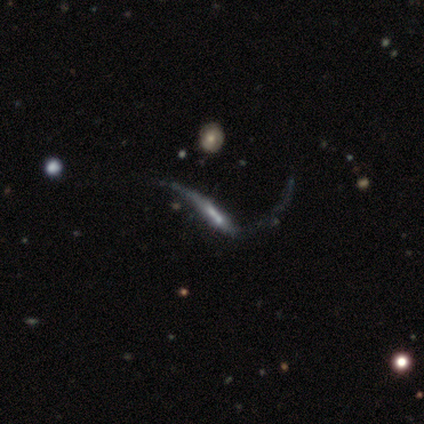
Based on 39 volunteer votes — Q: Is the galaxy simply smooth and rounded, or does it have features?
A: featured or disk — 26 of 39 (67%).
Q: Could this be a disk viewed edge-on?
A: no — 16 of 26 (62%).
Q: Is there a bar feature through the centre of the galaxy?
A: weak — 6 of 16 (38%).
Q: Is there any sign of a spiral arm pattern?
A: yes — 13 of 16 (81%).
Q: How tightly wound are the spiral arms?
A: loose — 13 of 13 (100%).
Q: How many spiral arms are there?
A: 2 — 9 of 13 (69%).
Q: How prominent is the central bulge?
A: small — 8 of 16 (50%).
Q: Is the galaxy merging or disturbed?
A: major disturbance — 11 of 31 (35%).